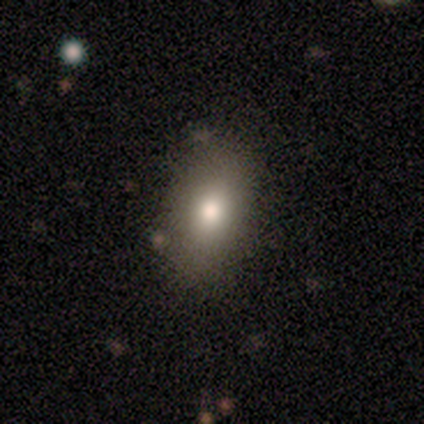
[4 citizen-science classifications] smooth 100%, featured or disk 0%, star or artifact 0%. Down the decision tree: how rounded — in between (50%); merging — none (100%).